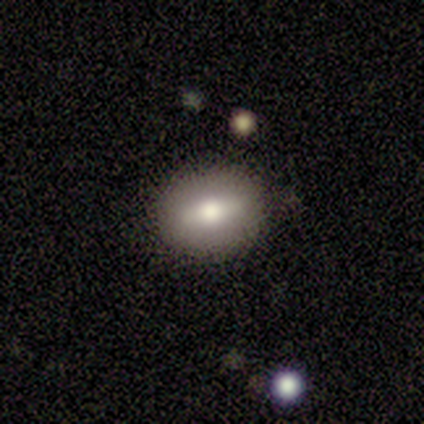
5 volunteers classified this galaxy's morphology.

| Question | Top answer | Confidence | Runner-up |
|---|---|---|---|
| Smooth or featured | smooth | 40% | tied: featured or disk (40%) |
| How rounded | in between | 100% | — |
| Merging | none | 100% | — |